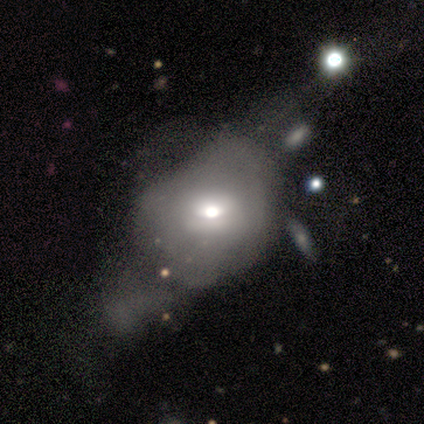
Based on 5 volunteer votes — Volunteers were most divided on "bulge size" (2-way tie): moderate: 50%, small: 50%, dominant: 0%, large: 0%, none: 0%; "merging" (2-way tie): none: 40%, minor disturbance: 40%, major disturbance: 20%, merger: 0%. More confident: bar — no (100%); spiral arms — no (100%); edge-on disk — no (67%); smooth or featured — featured or disk (60%).